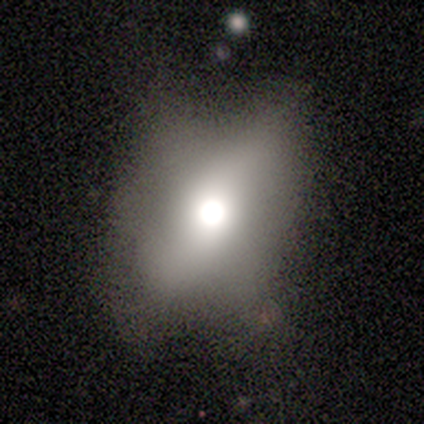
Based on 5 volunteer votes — Smooth or featured?
  - featured or disk: 60% *
  - smooth: 40%
  - star or artifact: 0%
Edge-on disk?
  - no: 67% *
  - yes: 33%
Bar?
  - strong: 50% * (tied)
  - no: 50% * (tied)
  - weak: 0%
Spiral arms?
  - no: 100% *
  - yes: 0%
Bulge size?
  - dominant: 50% * (tied)
  - moderate: 50% * (tied)
  - large: 0%
  - small: 0%
  - none: 0%
Merging?
  - none: 80% *
  - minor disturbance: 20%
  - major disturbance: 0%
  - merger: 0%